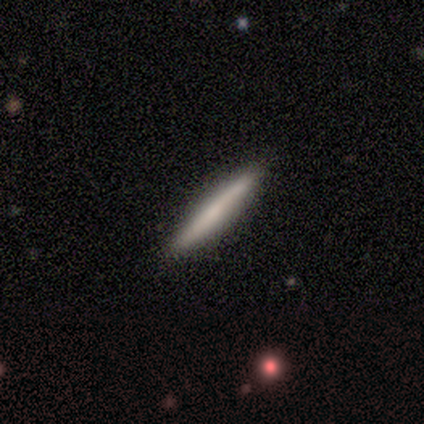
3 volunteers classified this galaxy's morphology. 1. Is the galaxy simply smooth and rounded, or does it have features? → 100% smooth, 0% featured or disk, 0% star or artifact.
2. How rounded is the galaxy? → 100% cigar-shaped, 0% round, 0% in between.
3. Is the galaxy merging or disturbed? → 100% none, 0% minor disturbance, 0% major disturbance, 0% merger.